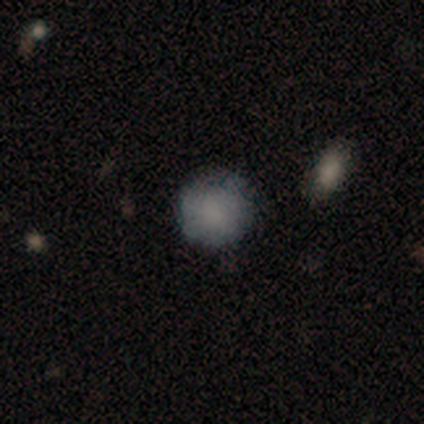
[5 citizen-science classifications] smooth-or-featured: smooth: 80% | star or artifact: 20% | featured or disk: 0%
  how-rounded: round: 100% | in between: 0% | cigar-shaped: 0%
  merging: minor disturbance: 50% | none: 25% | major disturbance: 25% | merger: 0%